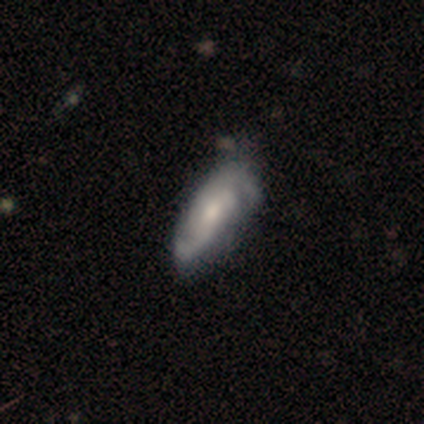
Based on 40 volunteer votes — Smooth or featured? featured or disk (82%)
Edge-on disk? no (100%)
Bar? no (45%)
Spiral arms? yes (100%)
Spiral winding? tight (45%)
Spiral arm count? 2 (61%)
Bulge size? moderate (45%)
Merging? none (51%)